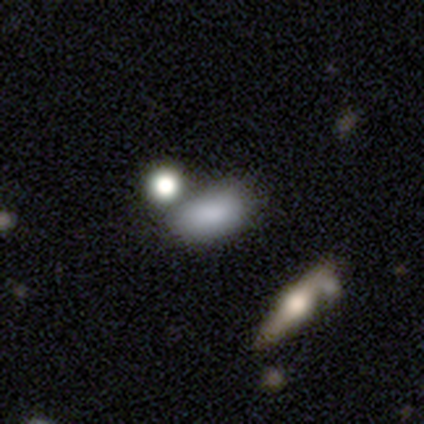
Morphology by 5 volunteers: Q: Smooth or featured?
A: smooth (60%); runner-up: featured or disk (40%)
Q: How rounded?
A: in between (67%); runner-up: cigar-shaped (33%)
Q: Merging?
A: minor disturbance (60%); runner-up: none (40%)